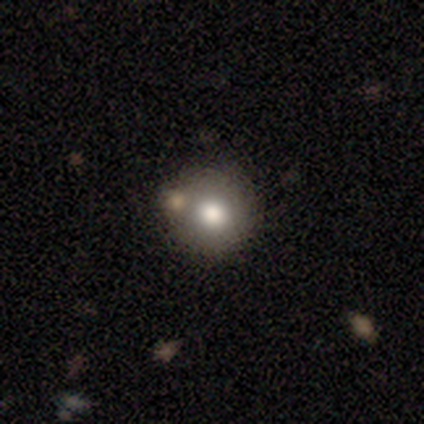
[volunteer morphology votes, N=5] type=star or artifact (60%).